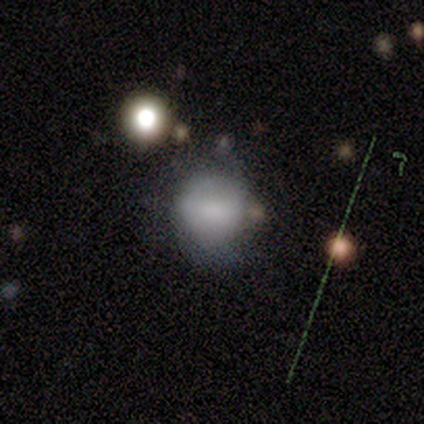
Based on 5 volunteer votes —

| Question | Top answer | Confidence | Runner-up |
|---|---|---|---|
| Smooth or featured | smooth | 60% | featured or disk (20%) |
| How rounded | round | 100% | — |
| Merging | none | 50% | tied: minor disturbance (50%) |